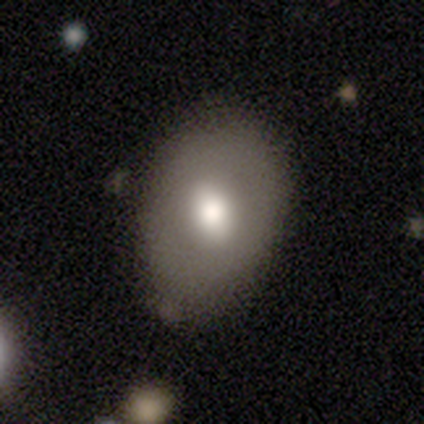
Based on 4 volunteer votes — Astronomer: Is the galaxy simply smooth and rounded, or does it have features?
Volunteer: featured or disk — 75%.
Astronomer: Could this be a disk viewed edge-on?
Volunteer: no — 100%.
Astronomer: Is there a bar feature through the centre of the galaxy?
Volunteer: no — 100%.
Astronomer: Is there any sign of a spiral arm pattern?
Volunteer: no — 100%.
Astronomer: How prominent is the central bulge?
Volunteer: moderate — 67%.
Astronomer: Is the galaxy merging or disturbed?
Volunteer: none — 75%.